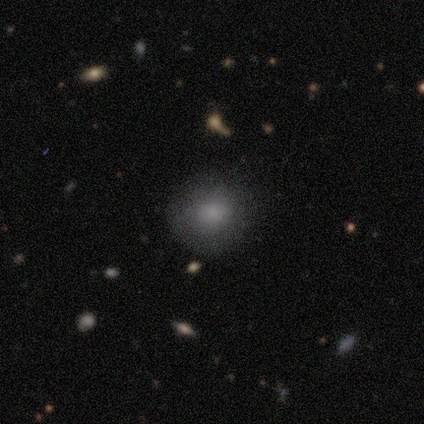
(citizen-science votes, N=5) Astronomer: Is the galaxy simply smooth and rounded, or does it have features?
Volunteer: smooth — 100%.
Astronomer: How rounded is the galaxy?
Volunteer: round — 100%.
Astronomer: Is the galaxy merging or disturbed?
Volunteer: none — 100%.